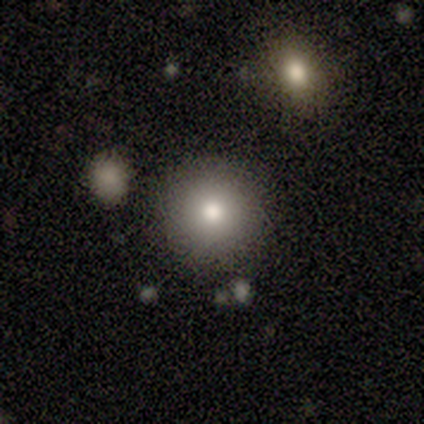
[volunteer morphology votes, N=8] smooth 88%, star or artifact 12%, featured or disk 0%. Down the decision tree: how rounded — round (100%); merging — none (100%).